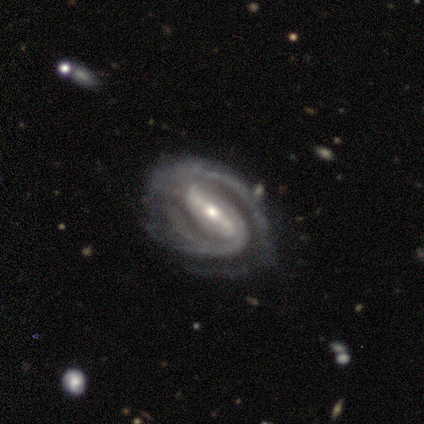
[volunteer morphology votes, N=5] Smooth or featured? 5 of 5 (100%) said featured or disk. Edge-on disk? 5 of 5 (100%) said no. Bar? 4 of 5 (80%) said strong. Spiral arms? 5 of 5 (100%) said yes. Spiral winding? 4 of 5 (80%) said medium. Spiral arm count? 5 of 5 (100%) said 2. Bulge size? 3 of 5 (60%) said small. Merging? 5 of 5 (100%) said none.